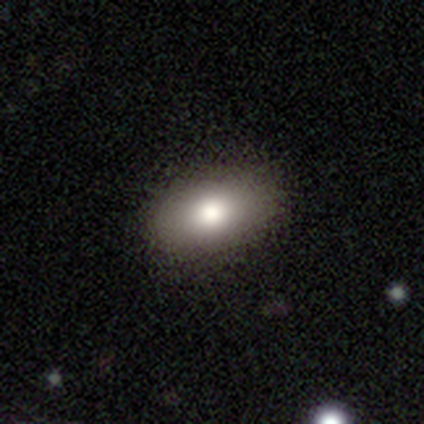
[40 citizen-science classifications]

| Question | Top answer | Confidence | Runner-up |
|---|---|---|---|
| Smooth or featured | smooth | 82% | featured or disk (15%) |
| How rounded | in between | 97% | cigar-shaped (3%) |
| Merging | none | 87% | minor disturbance (13%) |